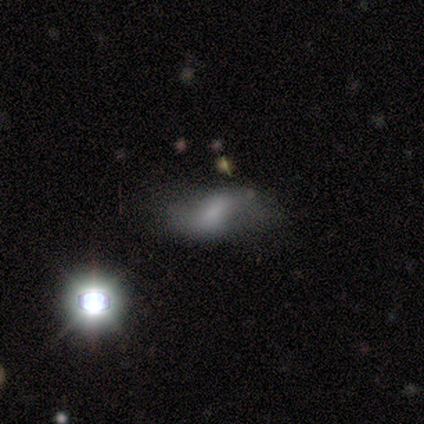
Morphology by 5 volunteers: Smooth or featured? 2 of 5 (40%, tied with star or artifact) said smooth. How rounded? 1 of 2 (50%, tied with cigar-shaped) said in between. Merging? 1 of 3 (33%, tied with minor disturbance and major disturbance) said none.